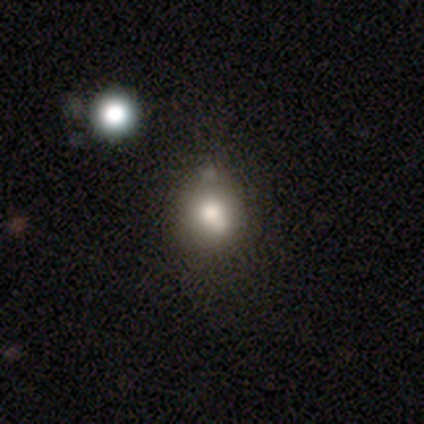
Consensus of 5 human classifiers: Morphology: type=smooth (80%); roundness=round (75%); merging=none (80%).